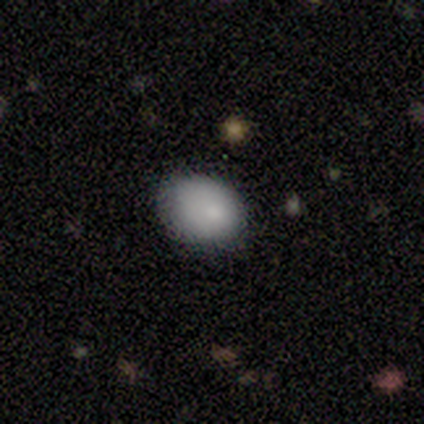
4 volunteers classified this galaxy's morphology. This appears to be a smooth galaxy with no disk features (100%) that is in between round and cigar-shaped (75%). Merging: none (75%).